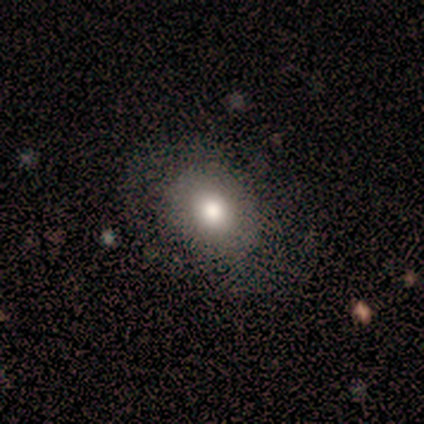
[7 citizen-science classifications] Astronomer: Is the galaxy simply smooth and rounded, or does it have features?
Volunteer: smooth — 57%.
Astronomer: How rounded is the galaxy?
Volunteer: round — 50%, tied with in between at 50%.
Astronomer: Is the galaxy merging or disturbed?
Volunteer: minor disturbance — 67%.